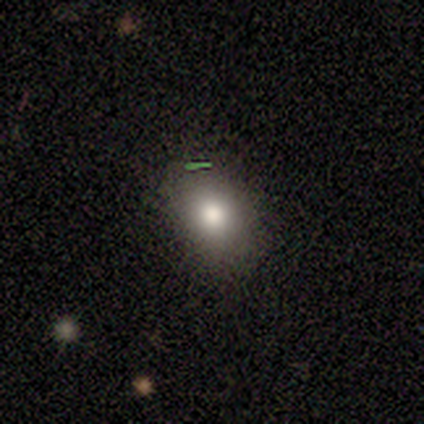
Smooth or featured? 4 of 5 (80%) said smooth. How rounded? 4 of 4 (100%) said in between. Merging? 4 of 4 (100%) said none.